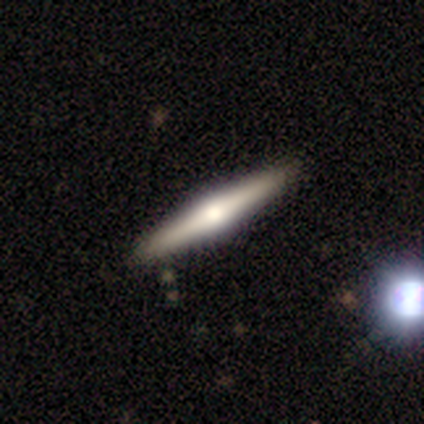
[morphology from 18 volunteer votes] Smooth or featured?
  - smooth: 61% *
  - featured or disk: 39%
  - star or artifact: 0%
How rounded?
  - cigar-shaped: 100% *
  - round: 0%
  - in between: 0%
Merging?
  - none: 100% *
  - minor disturbance: 0%
  - major disturbance: 0%
  - merger: 0%